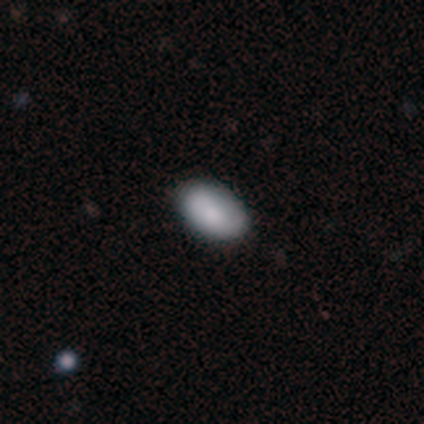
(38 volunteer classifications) Smooth or featured? 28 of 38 (74%) said smooth. How rounded? 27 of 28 (96%) said in between. Merging? 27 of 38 (71%) said none.